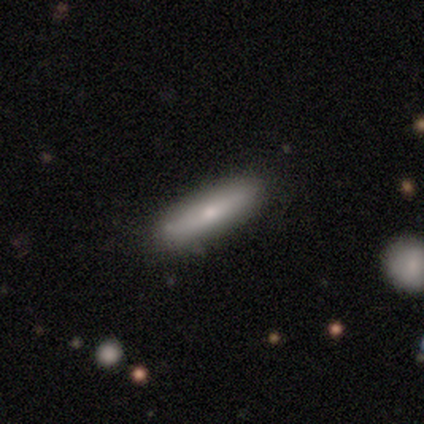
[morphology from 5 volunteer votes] Smooth or featured: smooth — 40% (tied with featured or disk — 40%)
How rounded: cigar-shaped — 100%
Merging: none — 100%